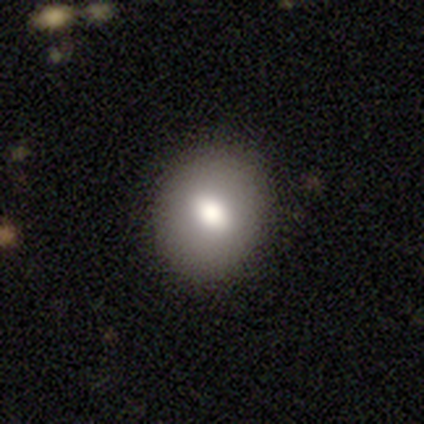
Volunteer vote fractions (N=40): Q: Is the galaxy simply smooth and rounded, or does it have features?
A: smooth — 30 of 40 (75%).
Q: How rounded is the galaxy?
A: round — 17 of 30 (57%).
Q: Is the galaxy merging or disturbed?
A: none — 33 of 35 (94%).